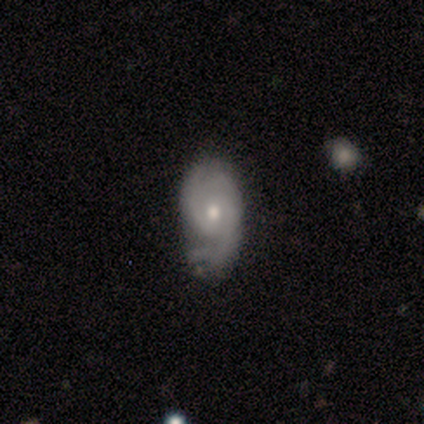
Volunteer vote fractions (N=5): A featured or disk galaxy (60%) with no bar (100%), 1 (50%, tied with can't tell) tight (50%, tied with medium) spiral arms (100%) and a small central bulge (100%).

Vote fractions:
- Smooth or featured? featured or disk: 60% / smooth: 20% / star or artifact: 20%
- Edge-on disk? no: 67% / yes: 33%
- Bar? no: 100% / strong: 0% / weak: 0%
- Spiral arms? yes: 100% / no: 0%
- Spiral winding? tight: 50% (tied) / medium: 50% (tied) / loose: 0%
- Spiral arm count? 1: 50% (tied) / can't tell: 50% (tied) / 2: 0% / 3: 0% / 4: 0% / more than 4: 0%
- Bulge size? small: 100% / dominant: 0% / large: 0% / moderate: 0% / none: 0%
- Merging? none: 50% / minor disturbance: 25% / major disturbance: 25% / merger: 0%